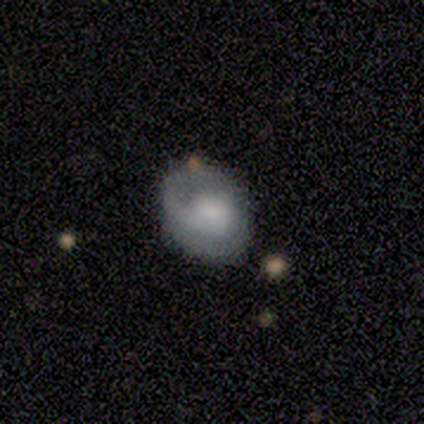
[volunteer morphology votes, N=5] Q: Smooth or featured?
A: featured or disk (80%); runner-up: smooth (20%)
Q: Edge-on disk?
A: no (100%)
Q: Bar?
A: no (75%); runner-up: weak (25%)
Q: Spiral arms?
A: yes (75%); runner-up: no (25%)
Q: Spiral winding?
A: loose (67%); runner-up: medium (33%)
Q: Spiral arm count?
A: 1 (67%); runner-up: can't tell (33%)
Q: Bulge size?
A: small (75%); runner-up: large (25%)
Q: Merging?
A: none (60%); runner-up: minor disturbance (20%)